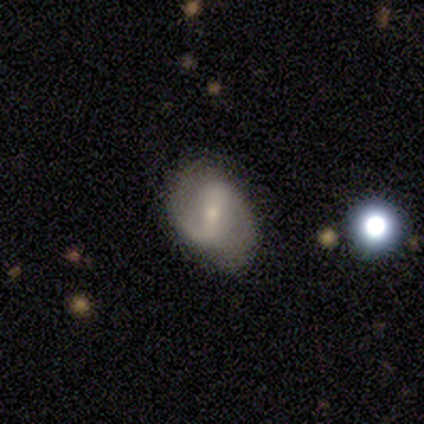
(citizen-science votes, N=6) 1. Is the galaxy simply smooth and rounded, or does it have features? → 100% featured or disk, 0% smooth, 0% star or artifact.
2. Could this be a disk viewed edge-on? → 83% no, 17% yes.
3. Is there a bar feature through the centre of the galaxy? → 80% weak, 20% strong, 0% no.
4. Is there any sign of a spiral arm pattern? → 100% yes, 0% no.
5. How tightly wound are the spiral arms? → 40% tight (tied), 40% loose (tied), 20% medium.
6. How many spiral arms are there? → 60% 2, 40% 1, 0% 3, 0% 4, 0% more than 4, 0% can't tell.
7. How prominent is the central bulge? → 80% small, 20% moderate, 0% dominant, 0% large, 0% none.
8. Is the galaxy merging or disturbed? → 67% minor disturbance, 33% none, 0% major disturbance, 0% merger.